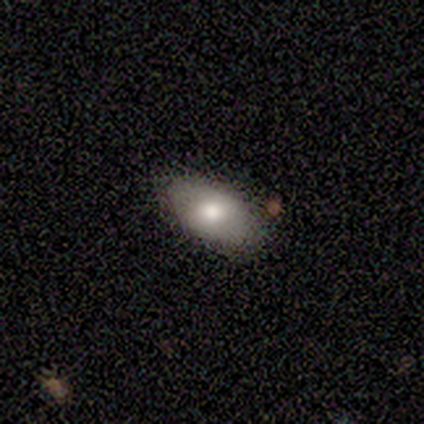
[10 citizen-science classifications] Volunteers were most divided on "smooth or featured": smooth: 80%, featured or disk: 20%, star or artifact: 0%. More confident: how rounded — in between (100%); merging — none (100%).